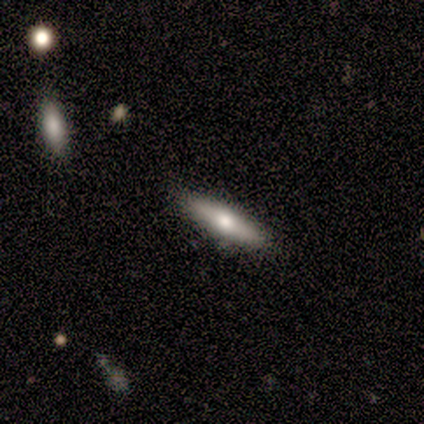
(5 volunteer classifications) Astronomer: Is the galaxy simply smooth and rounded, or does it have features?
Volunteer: featured or disk — 60% (runner-up: smooth, 40%).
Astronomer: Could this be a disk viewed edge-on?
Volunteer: yes — 100%.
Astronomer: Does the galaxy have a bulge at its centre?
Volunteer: rounded — 67%.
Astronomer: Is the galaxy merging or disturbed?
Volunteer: none — 80%.